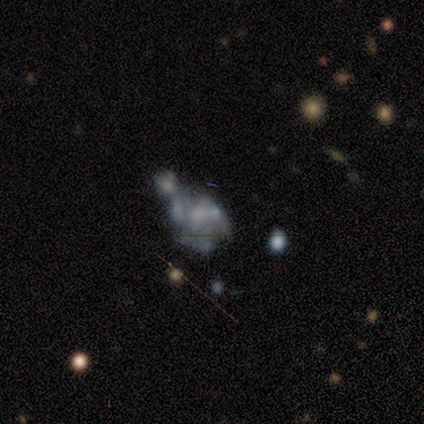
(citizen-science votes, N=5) Overall: featured or disk (40%, tied with star or artifact). Edge-on disk: no (100%). Bar: no (100%). Spiral arms: no (100%). Bulge size: none (100%). Merging: merger (67%; major disturbance 33%).